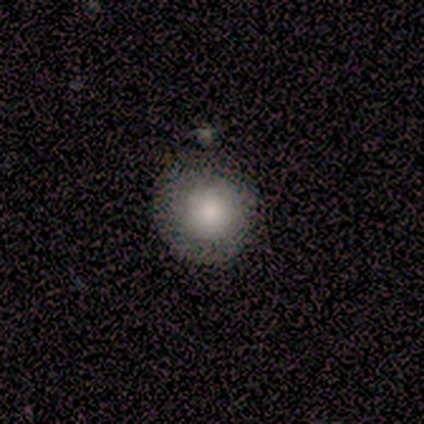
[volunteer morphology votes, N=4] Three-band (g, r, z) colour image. It shows a smooth galaxy with no disk features (75%) that is round (100%). Merging: none (67%).